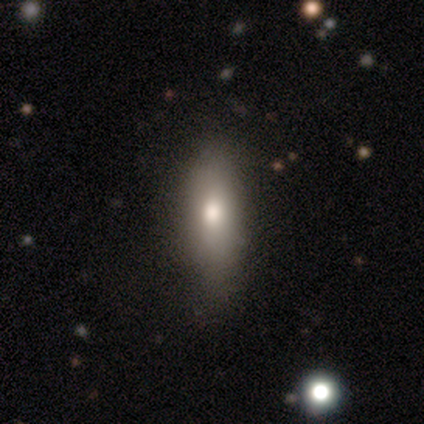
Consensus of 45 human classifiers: smooth_or_featured: smooth (p=0.69) [alt: featured or disk p=0.29]
how_rounded: in between (p=0.74) [alt: cigar-shaped p=0.26]
merging: none (p=0.75) [alt: minor disturbance p=0.25]